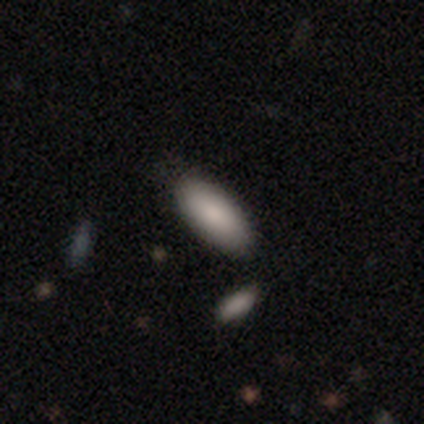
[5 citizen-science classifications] Smooth or featured? smooth (100%)
How rounded? in between (60%)
Merging? none (60%)